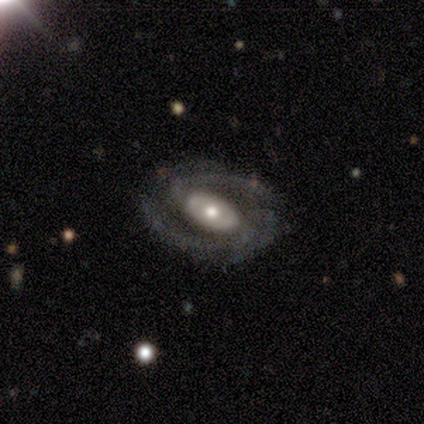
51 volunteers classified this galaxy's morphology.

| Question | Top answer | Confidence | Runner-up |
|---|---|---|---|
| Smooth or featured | featured or disk | 94% | star or artifact (4%) |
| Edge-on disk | no | 100% | — |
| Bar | no | 48% | strong (31%) |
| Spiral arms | yes | 100% | — |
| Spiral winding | medium | 50% | tight (35%) |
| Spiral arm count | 2 | 67% | 3 (10%) |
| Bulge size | moderate | 73% | large (17%) |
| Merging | none | 90% | minor disturbance (8%) |